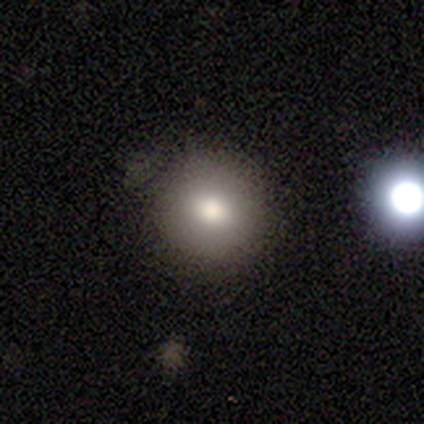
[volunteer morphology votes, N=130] Smooth or featured?
  - smooth: 76% *
  - star or artifact: 14%
  - featured or disk: 10%
How rounded?
  - round: 90% *
  - in between: 10%
  - cigar-shaped: 0%
Merging?
  - none: 81% *
  - minor disturbance: 15%
  - major disturbance: 2%
  - merger: 2%